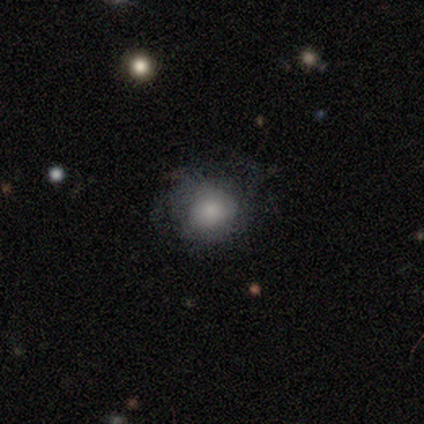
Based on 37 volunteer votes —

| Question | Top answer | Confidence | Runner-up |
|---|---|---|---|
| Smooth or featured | smooth | 51% | featured or disk (38%) |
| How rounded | round | 68% | in between (32%) |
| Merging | none | 58% | minor disturbance (21%) |